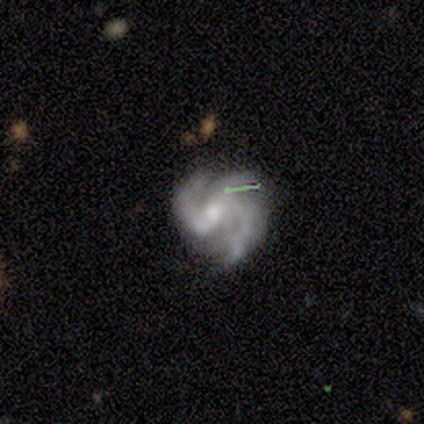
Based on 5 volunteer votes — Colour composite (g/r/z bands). It shows a featured or disk galaxy (100%) with a weak bar (40%, tied with no), 3 (60%) medium (80%) spiral arms (100%) and a moderate central bulge (40%, tied with none). Merging: none (60%).